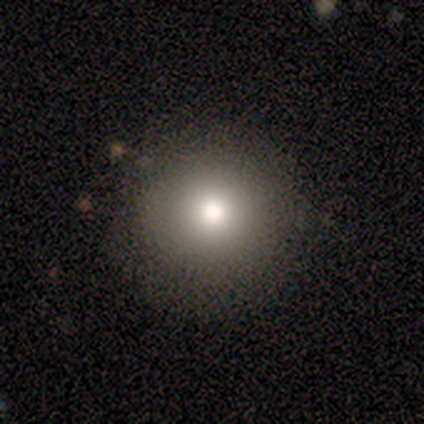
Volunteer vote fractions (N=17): Smooth or featured? smooth (76%)
How rounded? round (100%)
Merging? none (81%)